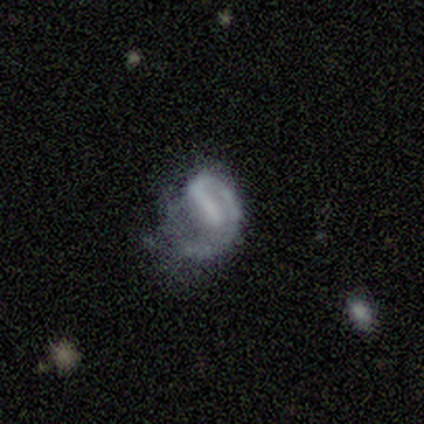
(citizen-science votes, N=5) A featured or disk galaxy (80%) with a weak bar (75%), 1 (100%) loose (100%) spiral arms (100%) and no central bulge (75%). Merging: none (40%, tied with major disturbance).